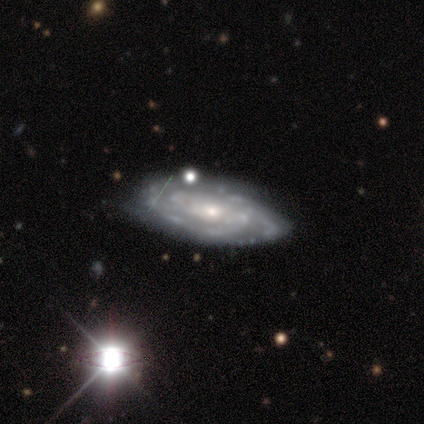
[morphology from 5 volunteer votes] Smooth or featured? 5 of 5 (100%) said featured or disk. Edge-on disk? 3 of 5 (60%) said no. Bar? 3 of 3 (100%) said no. Spiral arms? 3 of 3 (100%) said yes. Spiral winding? 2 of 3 (67%) said tight. Spiral arm count? 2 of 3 (67%) said can't tell. Bulge size? 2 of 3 (67%) said moderate. Merging? 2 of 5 (40%) said none.